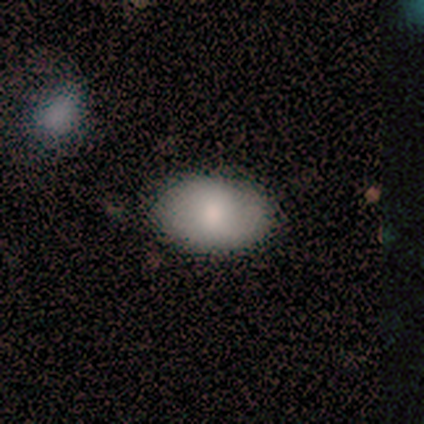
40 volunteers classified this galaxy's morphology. type=smooth (80%); roundness=in between (88%); merging=none (81%).